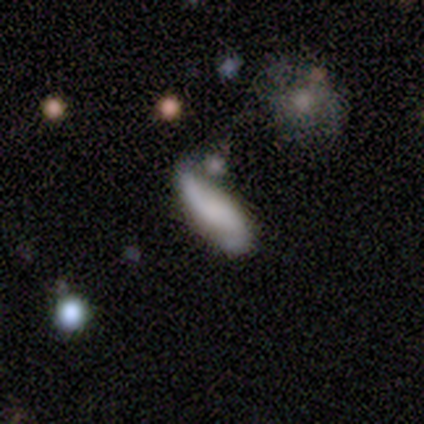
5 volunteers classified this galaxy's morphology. A featured or disk galaxy (60%) with no bar (100%), 2 (100%) loose (100%) spiral arms (67%) and no central bulge (100%).

Vote fractions:
- Smooth or featured? featured or disk: 60% / smooth: 40% / star or artifact: 0%
- Edge-on disk? no: 100% / yes: 0%
- Bar? no: 100% / strong: 0% / weak: 0%
- Spiral arms? yes: 67% / no: 33%
- Spiral winding? loose: 100% / tight: 0% / medium: 0%
- Spiral arm count? 2: 100% / 1: 0% / 3: 0% / 4: 0% / more than 4: 0% / can't tell: 0%
- Bulge size? none: 100% / dominant: 0% / large: 0% / moderate: 0% / small: 0%
- Merging? none: 40% (tied) / minor disturbance: 40% (tied) / major disturbance: 20% / merger: 0%